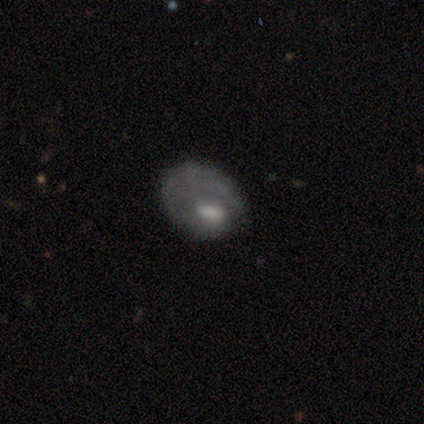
This is clearly a smooth galaxy (100%). How rounded: likely round (67%). Merging: clearly none (100%).